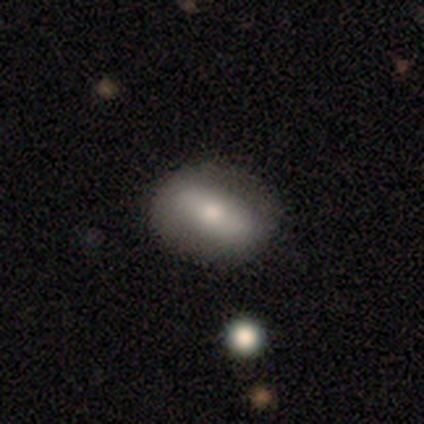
Q: Smooth or featured?
A: smooth (63%); runner-up: featured or disk (37%)
Q: How rounded?
A: in between (79%); runner-up: round (21%)
Q: Merging?
A: none (82%); runner-up: minor disturbance (11%)